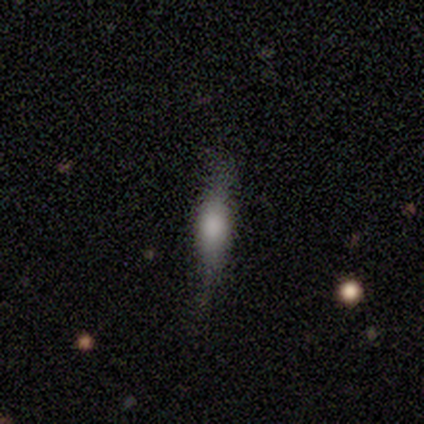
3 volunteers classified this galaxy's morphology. smooth-or-featured: smooth: 67% | featured or disk: 33% | star or artifact: 0%
  how-rounded: in between: 50% (tied) | cigar-shaped: 50% (tied) | round: 0%
  merging: none: 67% | minor disturbance: 33% | major disturbance: 0% | merger: 0%